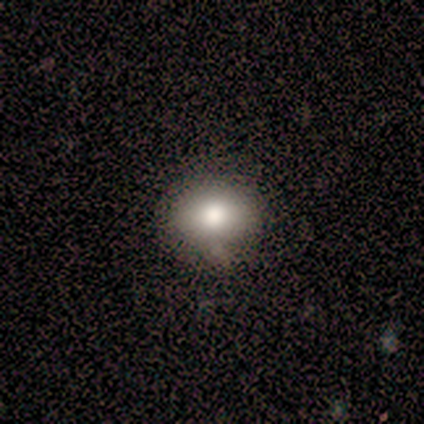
smooth_or_featured: smooth (p=1.00)
how_rounded: round (p=0.67) [alt: in between p=0.33]
merging: none (p=0.83) [alt: minor disturbance p=0.17]